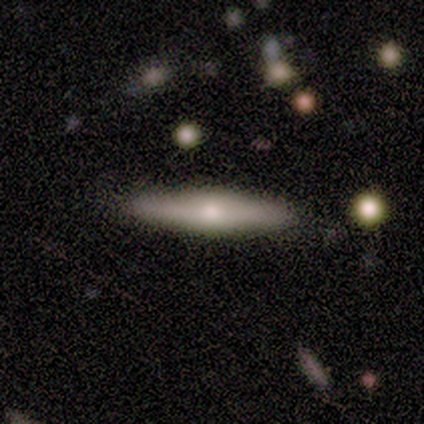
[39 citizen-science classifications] Morphology: type=featured or disk (54%); edge-on=yes (100%); edge-on bulge=rounded (81%); merging=none (74%).